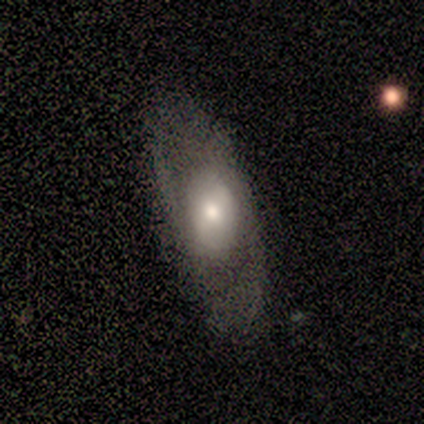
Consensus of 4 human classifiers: Overall: smooth (50%, tied with featured or disk). How rounded: in between (100%). Merging: none (50%, tied with minor disturbance).